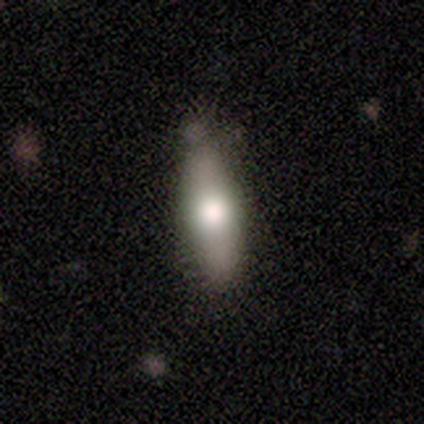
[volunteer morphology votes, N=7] smooth_or_featured: smooth (p=0.57) [alt: featured or disk p=0.29]
how_rounded: in between (p=0.75) [alt: cigar-shaped p=0.25]
merging: none (p=0.50) [tied with: minor disturbance p=0.50]